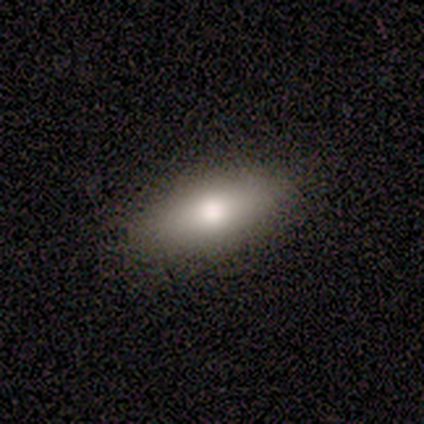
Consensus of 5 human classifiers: smooth-or-featured: smooth: 40% (tied) | star or artifact: 40% (tied) | featured or disk: 20%
  how-rounded: in between: 100% | round: 0% | cigar-shaped: 0%
  merging: none: 100% | minor disturbance: 0% | major disturbance: 0% | merger: 0%